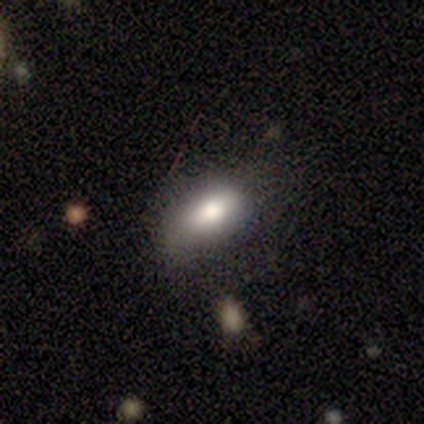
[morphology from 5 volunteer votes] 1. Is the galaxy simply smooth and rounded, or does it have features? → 100% smooth, 0% featured or disk, 0% star or artifact.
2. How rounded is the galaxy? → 100% in between, 0% round, 0% cigar-shaped.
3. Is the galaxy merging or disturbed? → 60% none, 40% minor disturbance, 0% major disturbance, 0% merger.